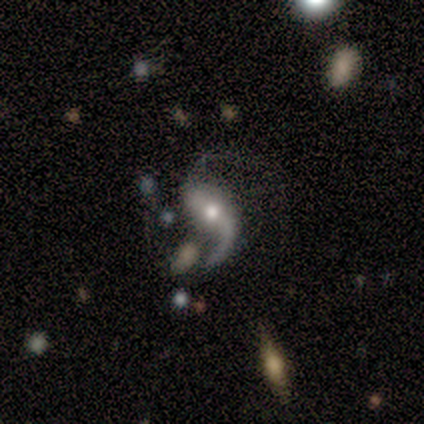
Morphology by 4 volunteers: type=featured or disk (100%); edge-on=no (100%); bar=no (75%); spiral arms=yes (100%); winding=loose (100%); arm count=2 (75%); bulge=small (50%); merging=none (75%).